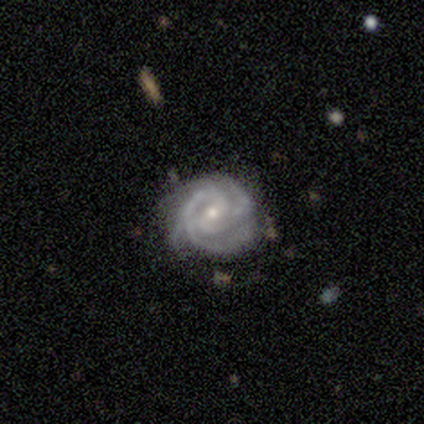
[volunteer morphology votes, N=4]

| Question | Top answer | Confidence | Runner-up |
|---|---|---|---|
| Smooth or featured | featured or disk | 100% | — |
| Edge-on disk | no | 100% | — |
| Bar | weak | 50% | strong (25%) |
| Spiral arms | yes | 100% | — |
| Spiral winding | tight | 50% | tied: medium (50%) |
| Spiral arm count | can't tell | 50% | 2 (25%) |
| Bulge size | small | 75% | moderate (25%) |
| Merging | none | 100% | — |